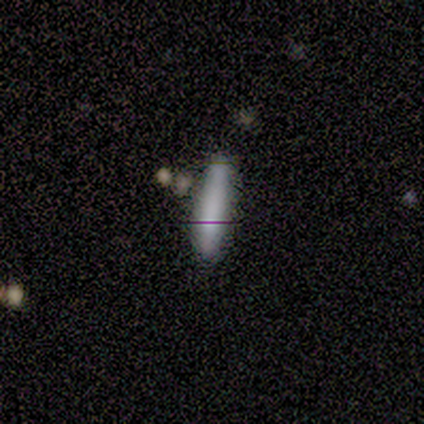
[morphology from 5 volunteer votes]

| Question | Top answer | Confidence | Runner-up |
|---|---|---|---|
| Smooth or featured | smooth | 100% | — |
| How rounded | cigar-shaped | 60% | in between (40%) |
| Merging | none | 80% | minor disturbance (20%) |